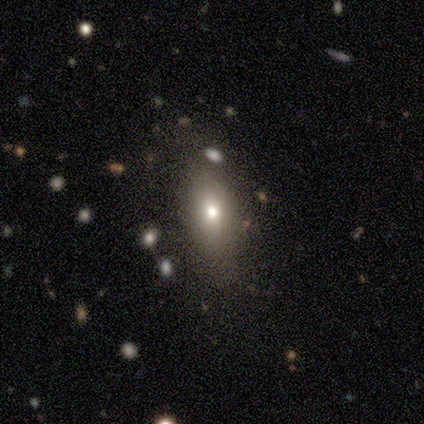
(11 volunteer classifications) Smooth or featured: smooth — 64% (featured or disk — 27%)
How rounded: in between — 100%
Merging: none — 90% (minor disturbance — 10%)